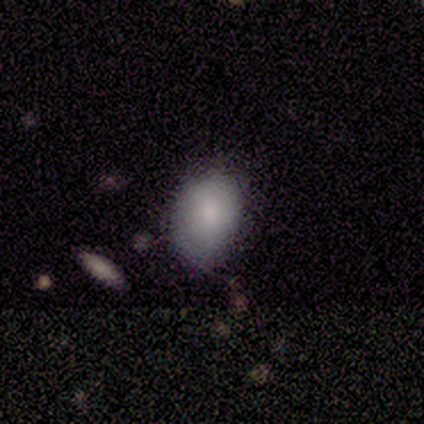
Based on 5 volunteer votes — Smooth or featured? smooth (100%)
How rounded? in between (80%)
Merging? none (60%)